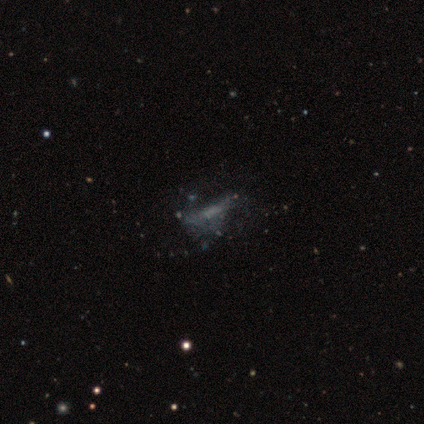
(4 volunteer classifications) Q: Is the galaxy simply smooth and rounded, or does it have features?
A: featured or disk — 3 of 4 (75%).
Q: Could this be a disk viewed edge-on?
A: no — 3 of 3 (100%).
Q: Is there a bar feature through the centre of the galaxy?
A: no — 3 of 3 (100%).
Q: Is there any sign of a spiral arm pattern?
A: no — 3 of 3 (100%).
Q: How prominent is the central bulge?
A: none — 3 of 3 (100%).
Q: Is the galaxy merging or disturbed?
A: none — 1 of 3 (33%, tied with minor disturbance and major disturbance).